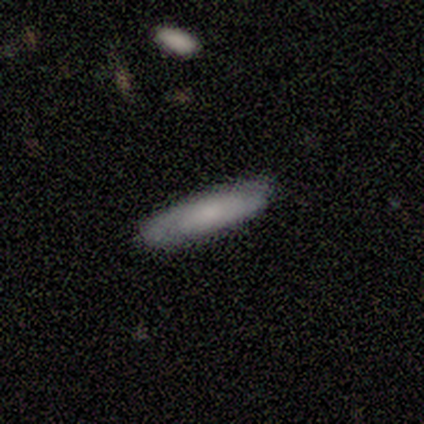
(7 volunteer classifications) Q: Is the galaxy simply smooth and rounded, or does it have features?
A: smooth — 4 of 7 (57%).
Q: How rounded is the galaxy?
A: cigar-shaped — 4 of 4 (100%).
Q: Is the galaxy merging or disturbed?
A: none — 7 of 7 (100%).